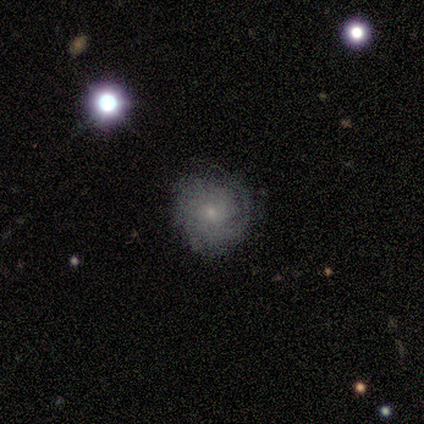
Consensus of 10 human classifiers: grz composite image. It shows a featured or disk galaxy (70%) with no bar (83%), tight (33%, tied with medium and loose) spiral arms (100%) and a small central bulge (100%). Merging: none (90%).